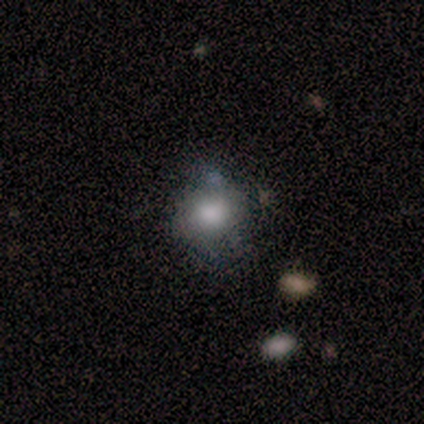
smooth 86%, featured or disk 14%, star or artifact 0%. Down the decision tree: how rounded — round (67%); merging — none (71%).